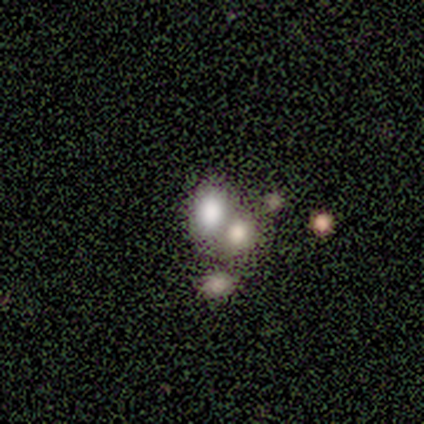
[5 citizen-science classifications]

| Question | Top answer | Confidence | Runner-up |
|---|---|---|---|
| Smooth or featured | smooth | 80% | star or artifact (20%) |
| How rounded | in between | 75% | round (25%) |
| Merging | none | 50% | tied: merger (50%) |